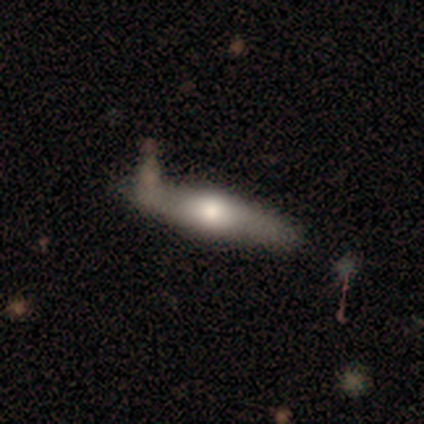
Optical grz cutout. It shows a smooth galaxy with no disk features (62%) that is cigar-shaped (78%). Merging: none (50%).